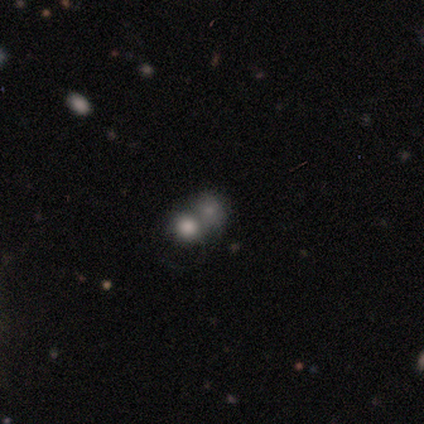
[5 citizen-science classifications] smooth_or_featured: featured or disk (p=0.60) [alt: smooth p=0.20]
disk_edge_on: no (p=1.00)
bar: no (p=1.00)
has_spiral_arms: no (p=1.00)
bulge_size: moderate (p=0.33) [tied with: small p=0.33, none p=0.33]
merging: merger (p=0.50) [alt: none p=0.25]